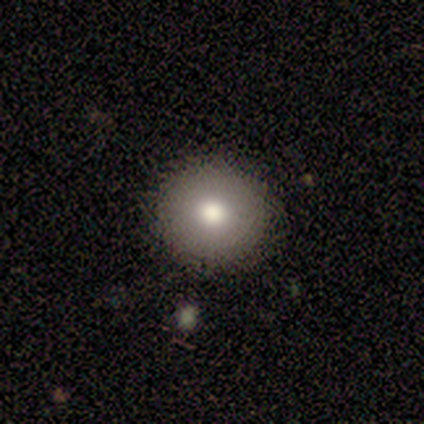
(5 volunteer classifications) This appears to be a smooth galaxy with no disk features (60%) that is round (100%). Merging: none (100%).